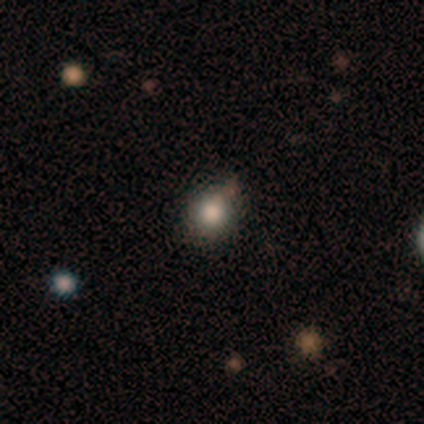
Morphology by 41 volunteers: This is likely a smooth galaxy (71%). How rounded: clearly round (93%). Merging: clearly none (88%).